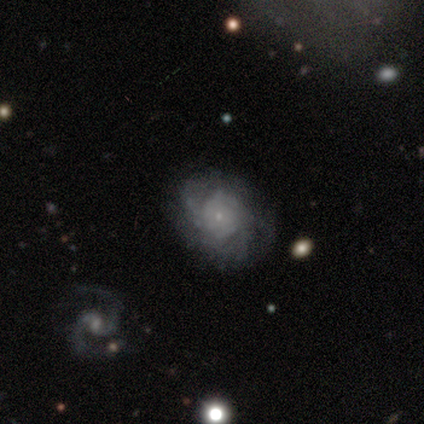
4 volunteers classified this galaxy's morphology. smooth-or-featured: smooth: 50% (tied) | featured or disk: 50% (tied) | star or artifact: 0%
  how-rounded: round: 50% (tied) | in between: 50% (tied) | cigar-shaped: 0%
  merging: none: 50% | minor disturbance: 25% | major disturbance: 25% | merger: 0%